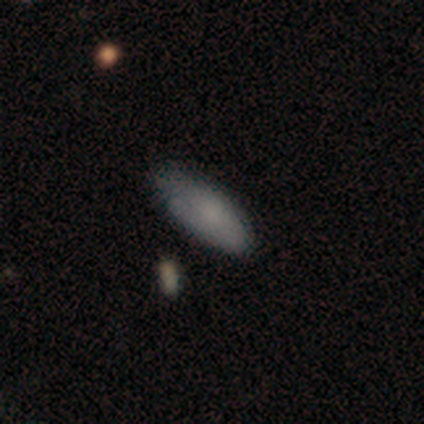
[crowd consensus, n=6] smooth 50%, star or artifact 33%, featured or disk 17%. Down the decision tree: how rounded — in between (100%); merging — none (50%, tied with minor disturbance).